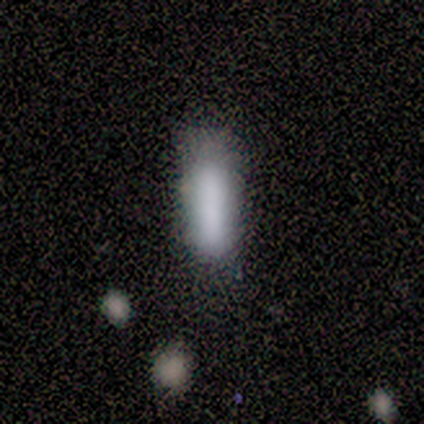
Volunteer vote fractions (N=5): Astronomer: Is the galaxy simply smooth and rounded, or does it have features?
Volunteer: smooth — 80%.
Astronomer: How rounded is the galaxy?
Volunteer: cigar-shaped — 75%.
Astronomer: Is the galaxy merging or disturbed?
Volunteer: none — 60%.